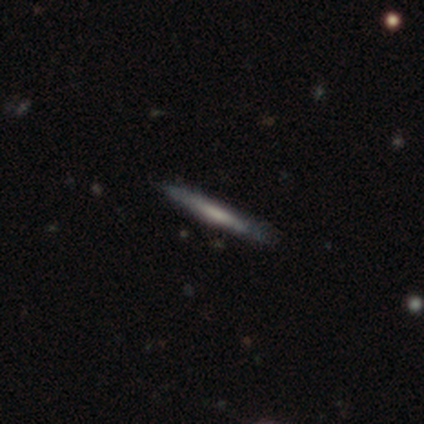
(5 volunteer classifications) A featured or disk galaxy (60%) viewed edge-on (100%) with a rounded central bulge (67%).

Vote fractions:
- Smooth or featured? featured or disk: 60% / smooth: 40% / star or artifact: 0%
- Edge-on disk? yes: 100% / no: 0%
- Edge-on bulge? rounded: 67% / none: 33% / boxy: 0%
- Merging? none: 100% / minor disturbance: 0% / major disturbance: 0% / merger: 0%